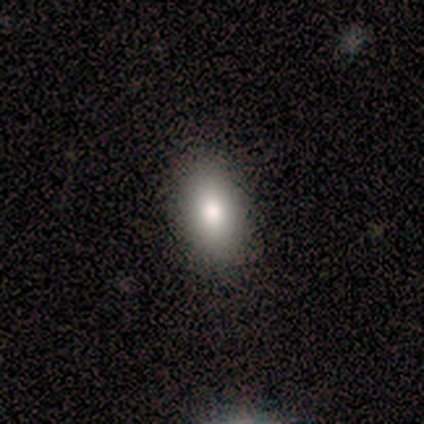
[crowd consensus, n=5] Overall: smooth (80%). How rounded: in between (100%). Merging: none (100%).